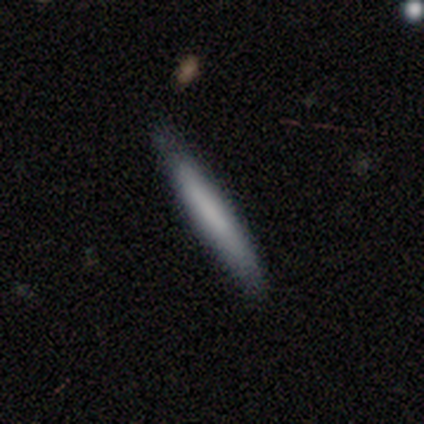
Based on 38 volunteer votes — Smooth or featured: smooth — 71% (featured or disk — 24%)
How rounded: cigar-shaped — 93% (in between — 7%)
Merging: none — 83% (minor disturbance — 17%)